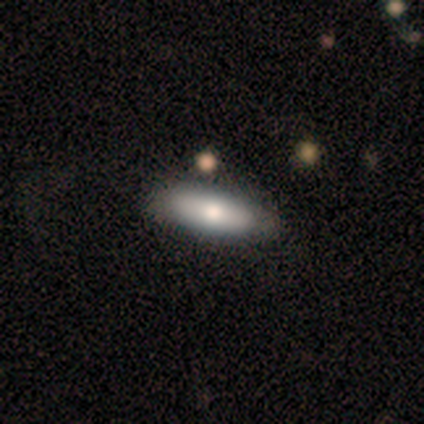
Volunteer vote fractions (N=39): Smooth or featured?
  - smooth: 69% *
  - featured or disk: 28%
  - star or artifact: 3%
How rounded?
  - cigar-shaped: 56% *
  - in between: 44%
  - round: 0%
Merging?
  - none: 66% *
  - minor disturbance: 5%
  - major disturbance: 0%
  - merger: 0%